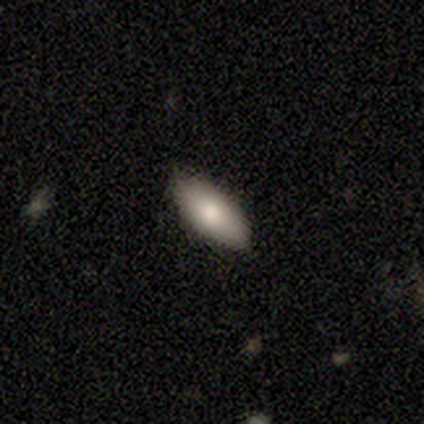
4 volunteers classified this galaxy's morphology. Smooth or featured: smooth — 100%
How rounded: in between — 75% (cigar-shaped — 25%)
Merging: none — 75% (minor disturbance — 25%)